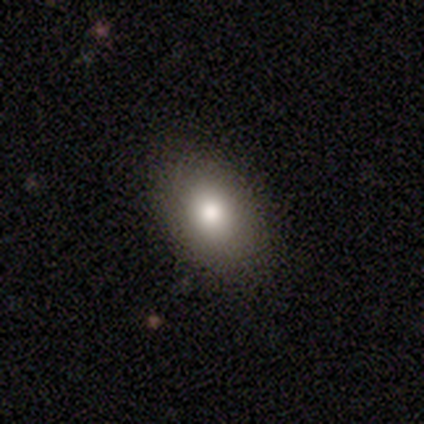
Smooth or featured? 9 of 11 (82%) said smooth. How rounded? 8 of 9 (89%) said in between. Merging? 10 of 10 (100%) said none.